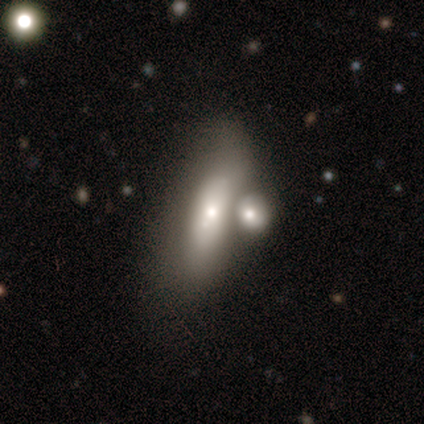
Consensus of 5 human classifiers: Morphology: type=smooth (80%); roundness=in between (50%, tied with cigar-shaped); merging=merger (60%).